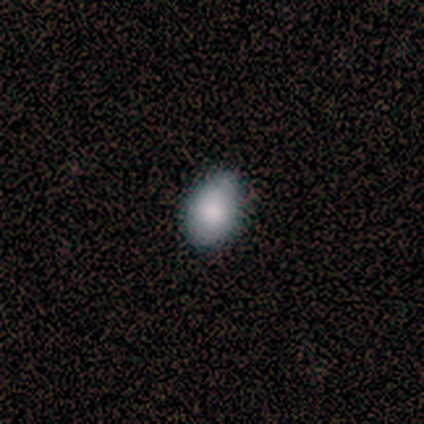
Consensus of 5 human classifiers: Smooth or featured: smooth — 80% (star or artifact — 20%)
How rounded: in between — 75% (round — 25%)
Merging: none — 100%